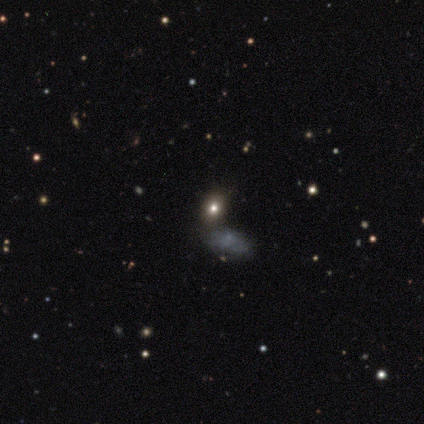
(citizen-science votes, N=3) A smooth galaxy with no disk features (67%) that is round (50%, tied with in between).

Vote fractions:
- Smooth or featured? smooth: 67% / star or artifact: 33% / featured or disk: 0%
- How rounded? round: 50% (tied) / in between: 50% (tied) / cigar-shaped: 0%
- Merging? none: 100% / minor disturbance: 0% / major disturbance: 0% / merger: 0%